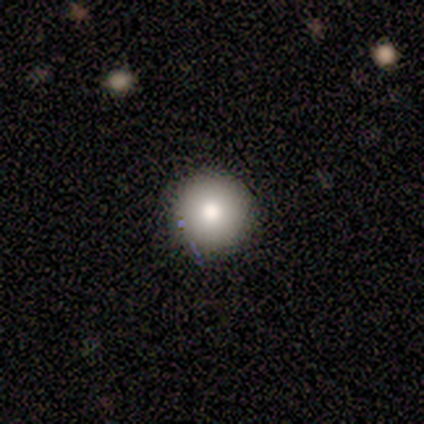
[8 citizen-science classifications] Morphology: type=smooth (50%); roundness=round (100%); merging=none (86%).